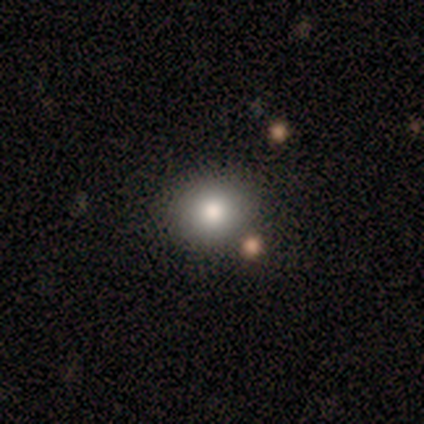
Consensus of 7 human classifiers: smooth_or_featured: smooth (p=0.71) [alt: featured or disk p=0.14]
how_rounded: round (p=0.80) [alt: in between p=0.20]
merging: none (p=0.83) [alt: merger p=0.17]